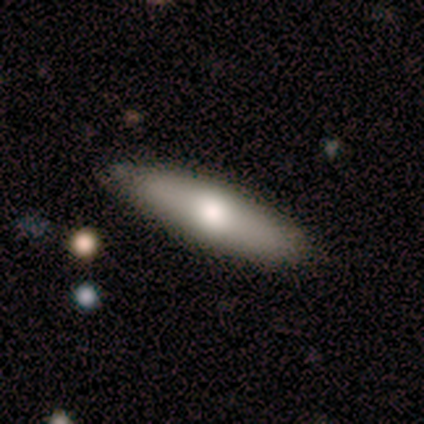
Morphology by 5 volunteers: smooth-or-featured: smooth: 60% | featured or disk: 40% | star or artifact: 0%
  how-rounded: in between: 67% | cigar-shaped: 33% | round: 0%
  merging: none: 60% | minor disturbance: 20% | major disturbance: 20% | merger: 0%